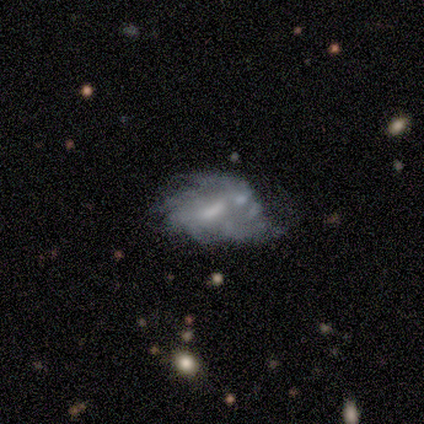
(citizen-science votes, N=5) Morphology: type=featured or disk (60%); edge-on=no (100%); bar=no (100%); spiral arms=no (67%); bulge=small (67%); merging=minor disturbance (40%).